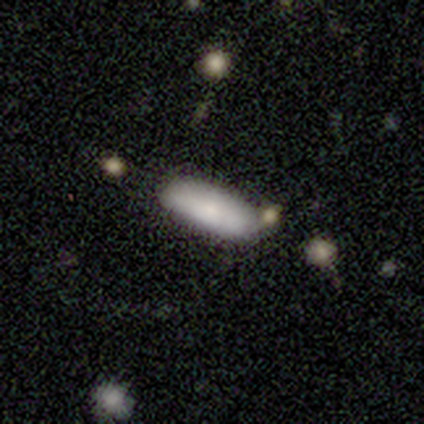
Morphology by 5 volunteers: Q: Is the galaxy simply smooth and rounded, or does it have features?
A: smooth — 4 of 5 (80%).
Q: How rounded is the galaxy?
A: in between — 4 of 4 (100%).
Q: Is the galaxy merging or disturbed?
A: none — 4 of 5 (80%).